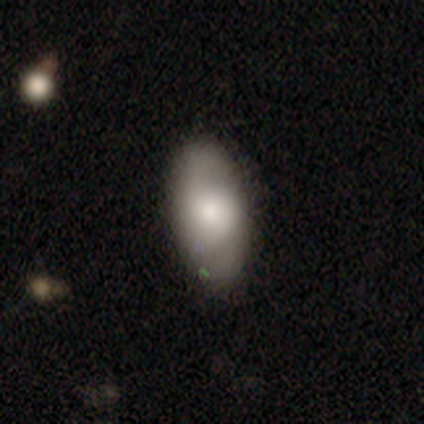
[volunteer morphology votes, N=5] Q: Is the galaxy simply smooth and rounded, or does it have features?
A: smooth — 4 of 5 (80%).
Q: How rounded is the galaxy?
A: in between — 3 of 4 (75%).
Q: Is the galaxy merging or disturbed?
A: none — 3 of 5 (60%).